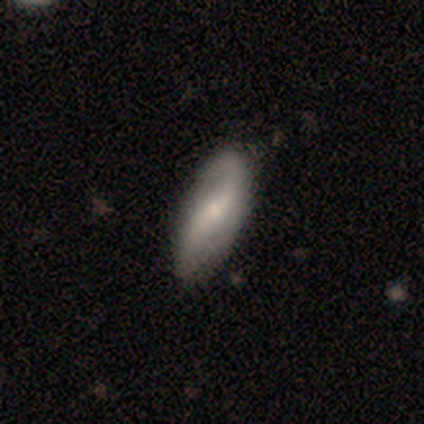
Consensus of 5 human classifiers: A featured or disk galaxy (80%) with a weak bar (50%), 2 (100%) medium (67%) spiral arms (75%) and a moderate central bulge (50%, tied with small). Merging: none (100%).